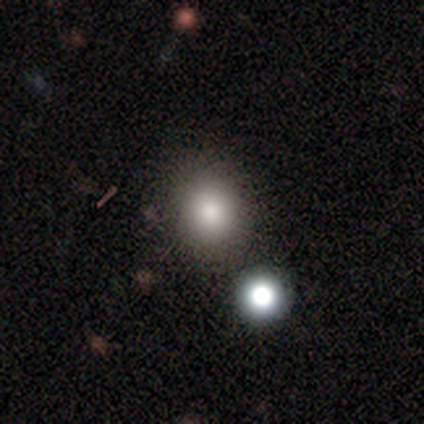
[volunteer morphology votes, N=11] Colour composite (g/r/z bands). It shows a smooth galaxy with no disk features (82%) that is round (89%). Merging: none (100%).